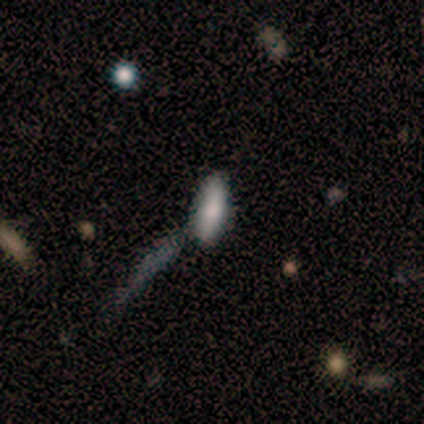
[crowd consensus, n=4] A smooth galaxy with no disk features (75%) that is in between round and cigar-shaped (67%). Merging: none (100%).